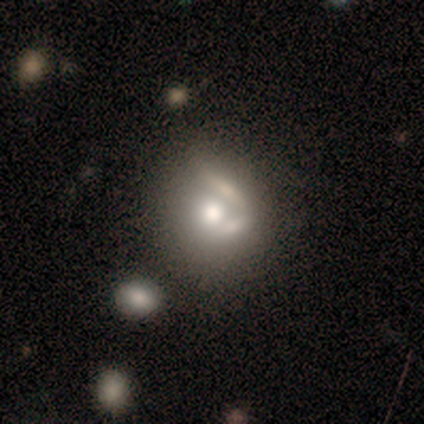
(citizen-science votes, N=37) Smooth or featured? 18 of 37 (49%) said smooth. How rounded? 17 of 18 (94%) said round. Merging? 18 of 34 (53%) said none.